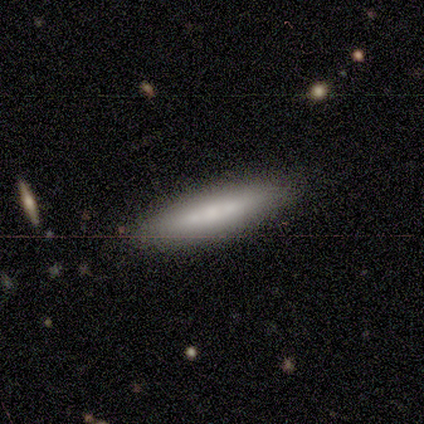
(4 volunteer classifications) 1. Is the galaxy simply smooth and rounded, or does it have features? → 75% smooth, 25% featured or disk, 0% star or artifact.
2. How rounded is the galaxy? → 100% cigar-shaped, 0% round, 0% in between.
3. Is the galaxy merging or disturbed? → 100% none, 0% minor disturbance, 0% major disturbance, 0% merger.